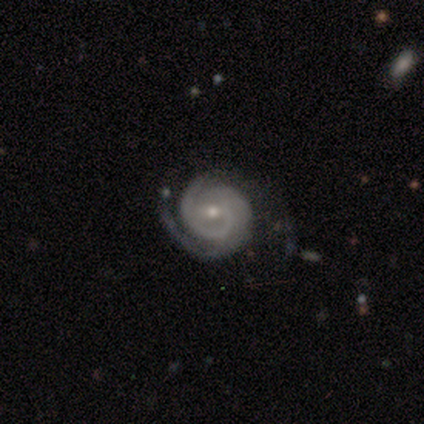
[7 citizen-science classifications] This appears to be a featured or disk galaxy (100%) with no bar (71%), 2 (57%) tight (100%) spiral arms (100%) and a small central bulge (86%). Merging: none (57%).